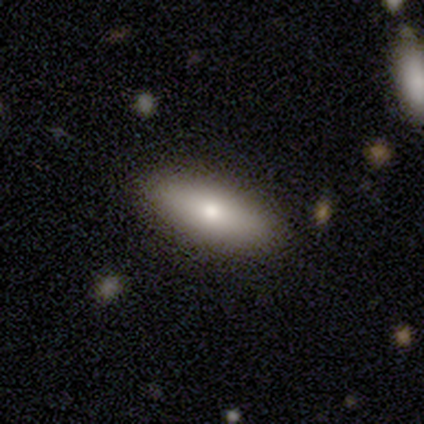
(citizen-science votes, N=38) smooth_or_featured: smooth (p=0.84) [alt: featured or disk p=0.13]
how_rounded: in between (p=0.75) [alt: cigar-shaped p=0.25]
merging: none (p=0.95) [alt: minor disturbance p=0.03]